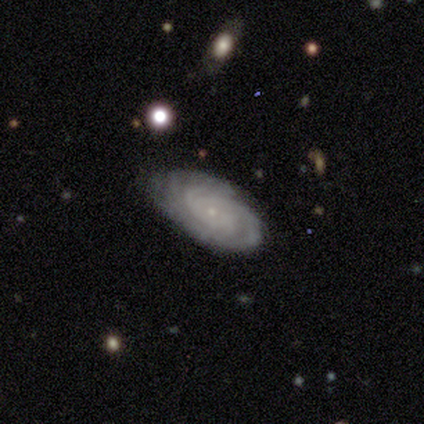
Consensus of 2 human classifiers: Smooth or featured?
  - featured or disk: 100% *
  - smooth: 0%
  - star or artifact: 0%
Edge-on disk?
  - no: 100% *
  - yes: 0%
Bar?
  - no: 100% *
  - strong: 0%
  - weak: 0%
Spiral arms?
  - yes: 100% *
  - no: 0%
Spiral winding?
  - tight: 100% *
  - medium: 0%
  - loose: 0%
Spiral arm count?
  - 3: 50% * (tied)
  - more than 4: 50% * (tied)
  - 1: 0%
  - 2: 0%
  - 4: 0%
  - can't tell: 0%
Bulge size?
  - small: 100% *
  - dominant: 0%
  - large: 0%
  - moderate: 0%
  - none: 0%
Merging?
  - none: 50% * (tied)
  - merger: 50% * (tied)
  - minor disturbance: 0%
  - major disturbance: 0%